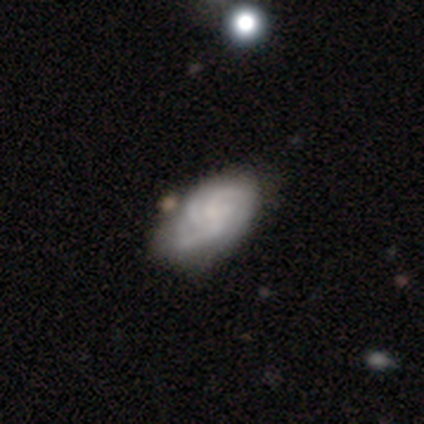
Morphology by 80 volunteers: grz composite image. It shows a featured or disk galaxy (75%) with no bar (82%), 3 (53%) tight (62%) spiral arms (96%) and no central bulge (53%). Merging: none (31%).